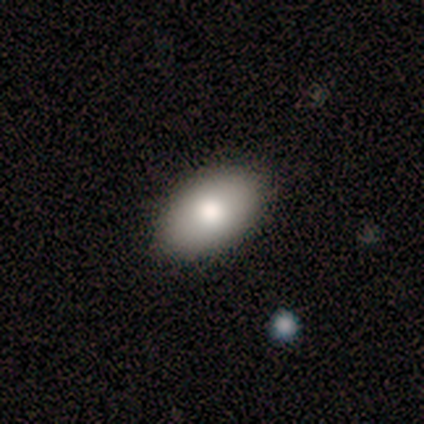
Overall: smooth (80%). How rounded: in between (100%). Merging: none (100%).